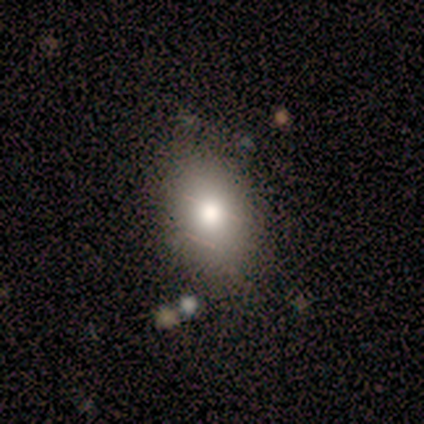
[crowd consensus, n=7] Smooth or featured: smooth — 57% (featured or disk — 29%)
How rounded: in between — 75% (round — 25%)
Merging: none — 83% (minor disturbance — 17%)